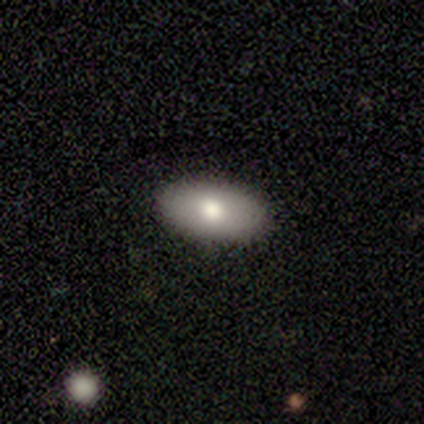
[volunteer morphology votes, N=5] Smooth or featured: smooth — 100%
How rounded: in between — 100%
Merging: none — 100%